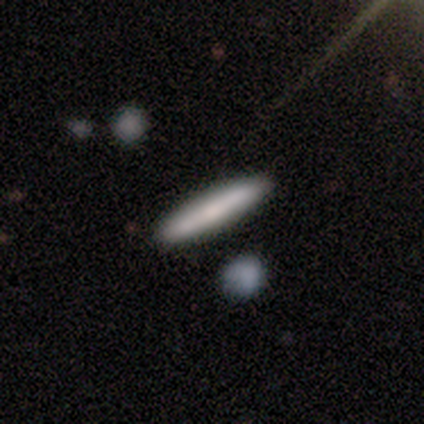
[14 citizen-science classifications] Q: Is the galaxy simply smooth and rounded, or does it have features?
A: smooth — 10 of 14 (71%).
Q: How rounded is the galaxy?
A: cigar-shaped — 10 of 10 (100%).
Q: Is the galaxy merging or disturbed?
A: none — 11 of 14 (79%).